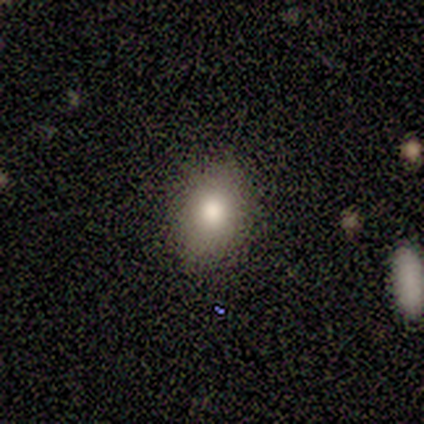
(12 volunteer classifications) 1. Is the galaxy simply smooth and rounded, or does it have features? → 75% smooth, 17% star or artifact, 8% featured or disk.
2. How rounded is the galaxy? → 78% in between, 22% round, 0% cigar-shaped.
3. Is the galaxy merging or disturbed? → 90% none, 10% minor disturbance, 0% major disturbance, 0% merger.